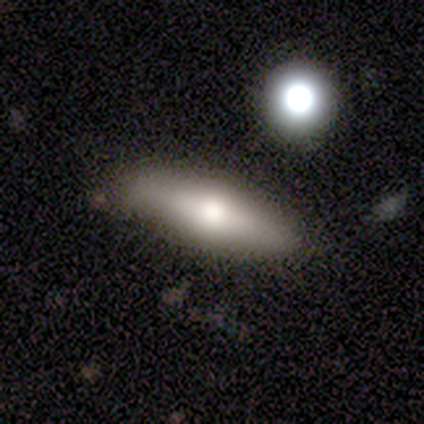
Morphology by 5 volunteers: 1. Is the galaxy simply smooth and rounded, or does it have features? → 60% smooth, 40% featured or disk, 0% star or artifact.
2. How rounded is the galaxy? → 33% round (tied), 33% in between (tied), 33% cigar-shaped (tied).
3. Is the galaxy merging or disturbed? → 60% minor disturbance, 20% none, 20% merger, 0% major disturbance.